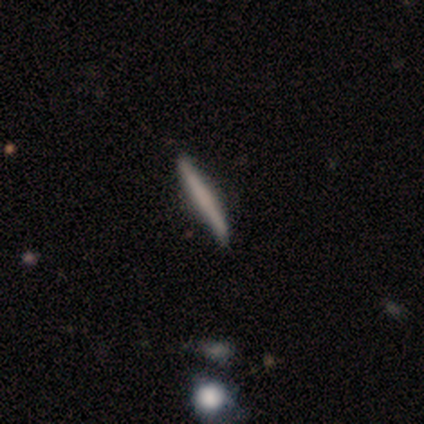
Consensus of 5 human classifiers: smooth_or_featured: featured or disk (p=0.60) [alt: smooth p=0.40]
disk_edge_on: yes (p=1.00)
edge_on_bulge: none (p=0.67) [alt: rounded p=0.33]
merging: none (p=0.80) [alt: major disturbance p=0.20]